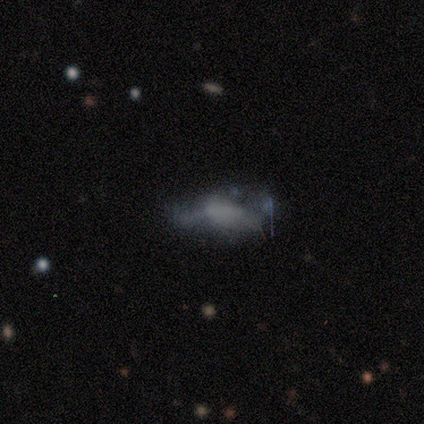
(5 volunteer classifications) Smooth or featured: smooth — 60% (featured or disk — 40%)
How rounded: in between — 100%
Merging: none — 40% (minor disturbance — 20%)